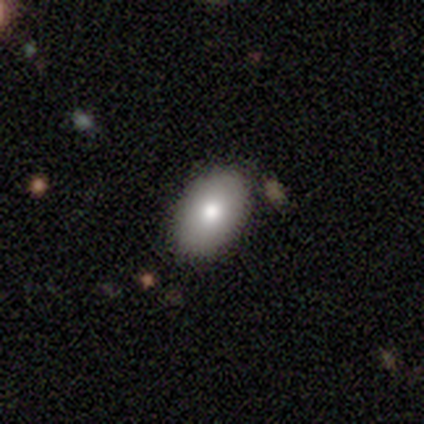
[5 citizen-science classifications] star or artifact 60%, smooth 40%, featured or disk 0%.